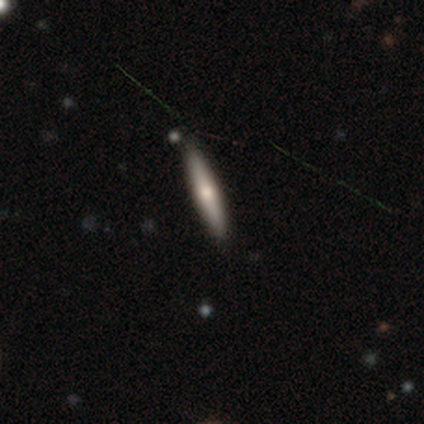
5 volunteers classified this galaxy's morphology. Smooth or featured? smooth (80%)
How rounded? cigar-shaped (100%)
Merging? none (100%)